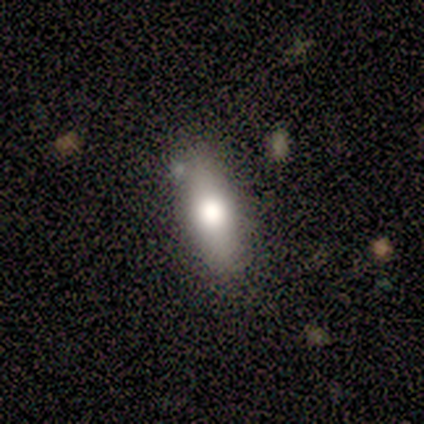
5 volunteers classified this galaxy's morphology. Overall: smooth (60%; featured or disk 40%). How rounded: in between (100%). Merging: minor disturbance (60%; none 40%).